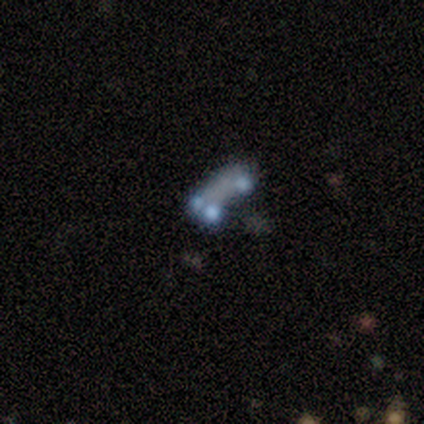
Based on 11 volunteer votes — This appears to be a featured or disk galaxy (55%) with no bar (100%), no spiral arms (100%) and no central bulge (83%). Merging: merger (44%).